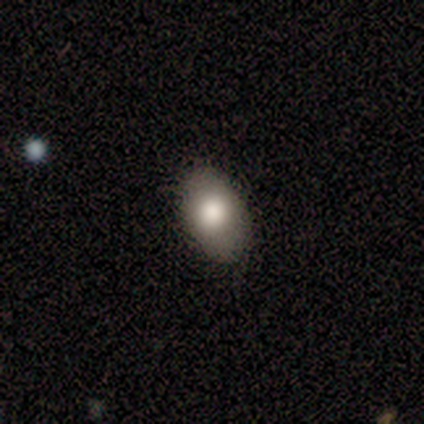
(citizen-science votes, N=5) A smooth galaxy with no disk features (60%) that is in between round and cigar-shaped (100%). Merging: none (100%).